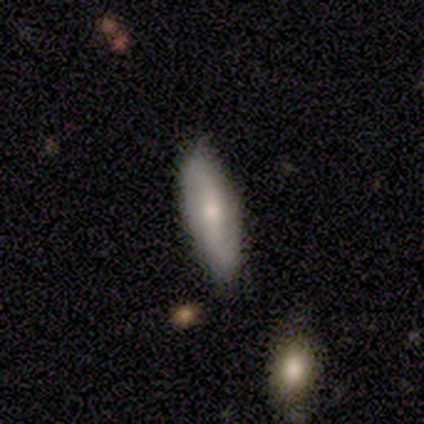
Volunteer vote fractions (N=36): Volunteers were most divided on "bulge size" (2-way tie): moderate: 44%, small: 44%, large: 11%, dominant: 0%, none: 0%. Remaining: spiral arms — yes (94%); edge-on disk — no (90%); spiral arm count — 2 (88%); merging — none (77%); smooth or featured — featured or disk (56%); bar — weak (56%); spiral winding — loose (47%).